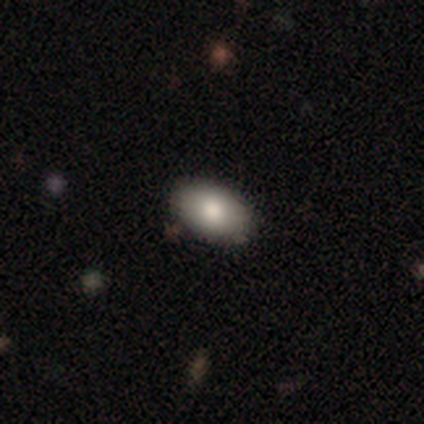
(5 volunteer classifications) This is clearly a smooth galaxy (100%). How rounded: clearly in between (100%). Merging: clearly none (80%).